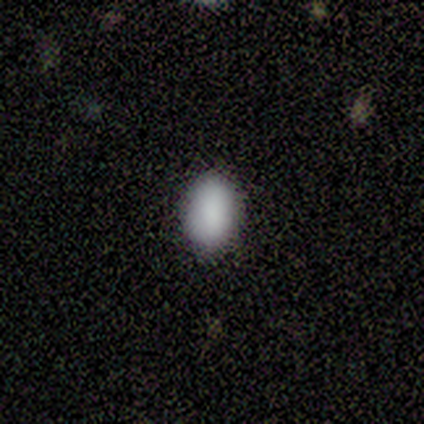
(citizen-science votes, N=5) Smooth or featured? 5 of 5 (100%) said smooth. How rounded? 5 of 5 (100%) said in between. Merging? 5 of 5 (100%) said none.